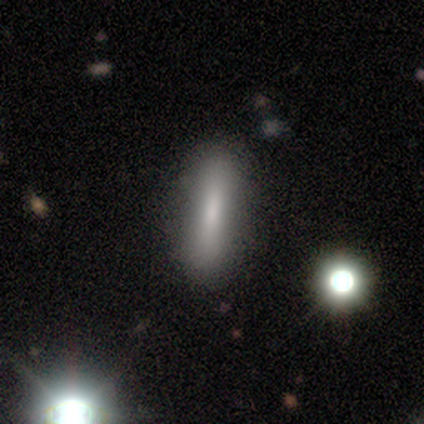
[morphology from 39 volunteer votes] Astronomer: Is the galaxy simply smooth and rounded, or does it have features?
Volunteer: smooth — 69%.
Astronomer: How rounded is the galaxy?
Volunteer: cigar-shaped — 81%.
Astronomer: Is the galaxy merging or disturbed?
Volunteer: none — 81%.